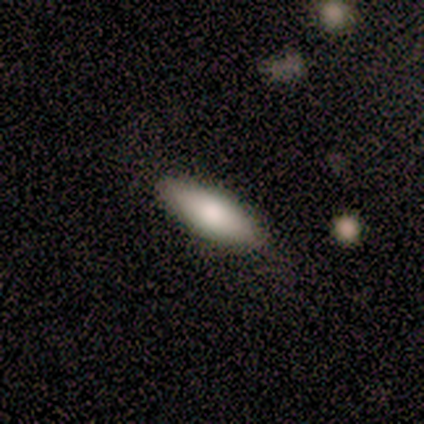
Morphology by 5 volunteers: type=smooth (100%); roundness=cigar-shaped (60%); merging=none (80%).